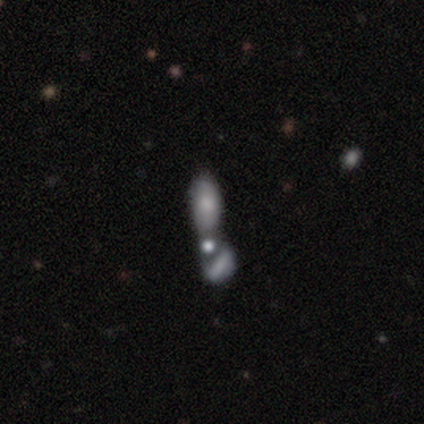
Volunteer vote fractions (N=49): Smooth or featured?
  - smooth: 51% *
  - featured or disk: 45%
  - star or artifact: 4%
How rounded?
  - in between: 84% *
  - cigar-shaped: 16%
  - round: 0%
Merging?
  - merger: 74% *
  - none: 13%
  - minor disturbance: 6%
  - major disturbance: 6%